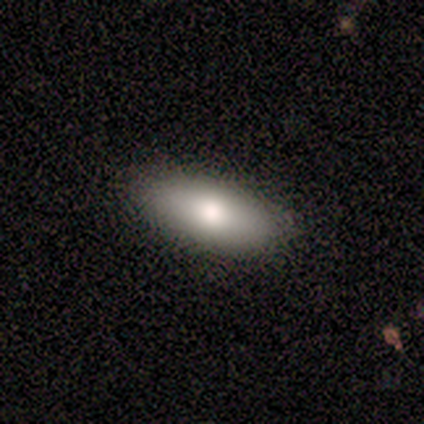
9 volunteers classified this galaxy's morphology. A smooth galaxy with no disk features (78%) that is in between round and cigar-shaped (71%). Merging: none (62%).